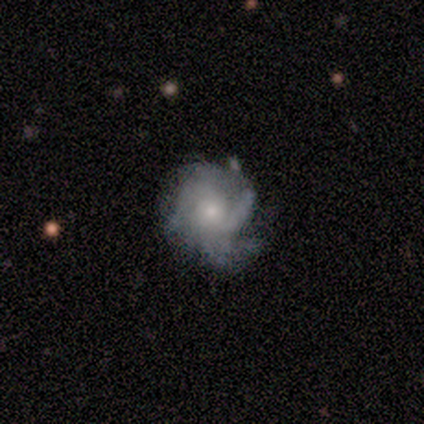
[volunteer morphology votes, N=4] Q: Smooth or featured?
A: featured or disk (100%)
Q: Edge-on disk?
A: no (100%)
Q: Bar?
A: no (75%); runner-up: weak (25%)
Q: Spiral arms?
A: yes (100%)
Q: Spiral winding?
A: tight (50%); tied with: medium (50%)
Q: Spiral arm count?
A: 3 (50%); runner-up: 2 (25%)
Q: Bulge size?
A: moderate (50%); tied with: small (50%)
Q: Merging?
A: none (50%); runner-up: minor disturbance (25%)